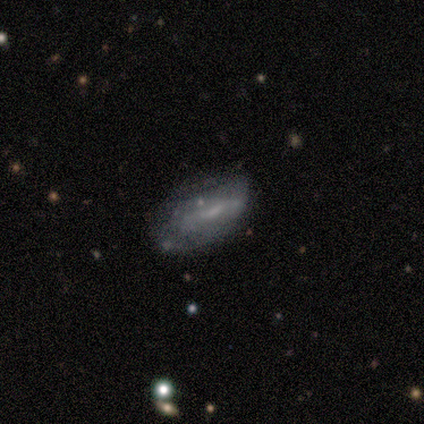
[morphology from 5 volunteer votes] type=featured or disk (60%); edge-on=no (100%); bar=weak (67%); spiral arms=no (100%); bulge=none (67%); merging=minor disturbance (75%).